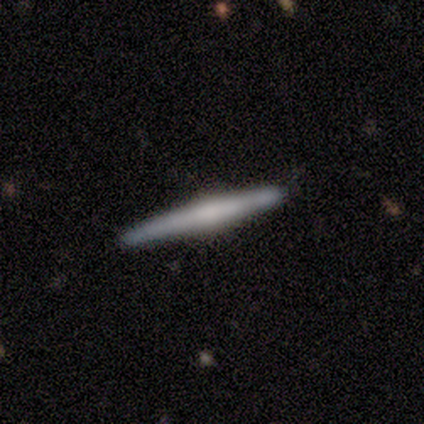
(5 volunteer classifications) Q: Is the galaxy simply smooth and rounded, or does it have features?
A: featured or disk — 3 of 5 (60%).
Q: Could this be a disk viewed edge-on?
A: yes — 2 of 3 (67%).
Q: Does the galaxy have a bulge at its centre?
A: none — 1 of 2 (50%, tied with rounded).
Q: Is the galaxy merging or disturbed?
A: none — 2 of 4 (50%, tied with minor disturbance).